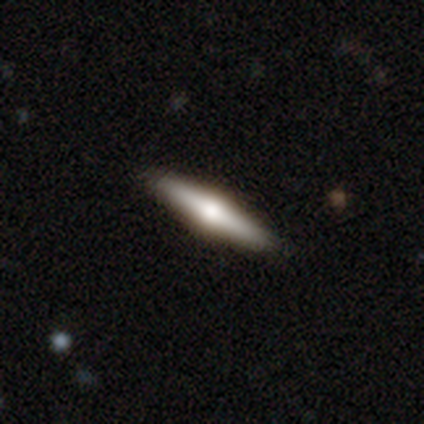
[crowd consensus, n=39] Smooth or featured? 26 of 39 (67%) said featured or disk. Edge-on disk? 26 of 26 (100%) said yes. Edge-on bulge? 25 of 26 (96%) said rounded. Merging? 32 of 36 (89%) said none.